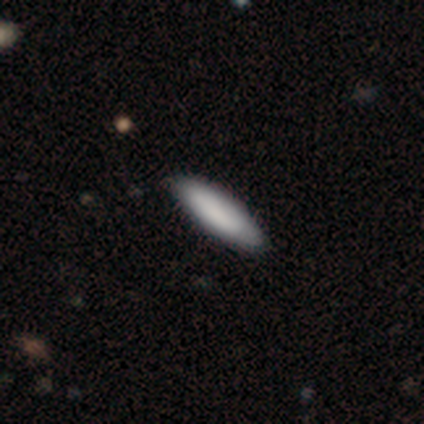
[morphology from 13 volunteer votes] Overall: smooth (100%). How rounded: cigar-shaped (54%; in between 46%). Merging: none (85%).